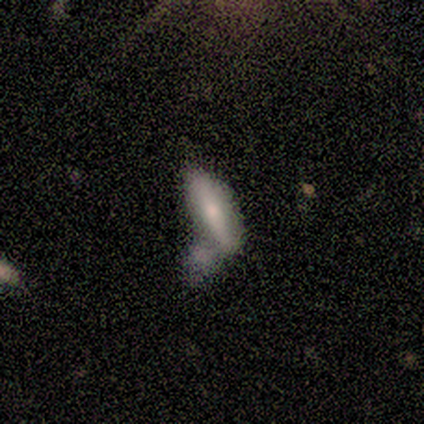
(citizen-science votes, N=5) Morphology: type=smooth (80%); roundness=in between (100%); merging=none (40%).